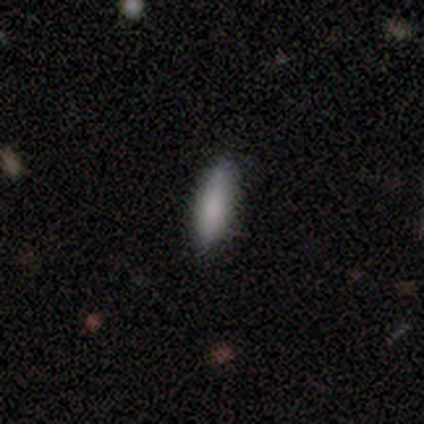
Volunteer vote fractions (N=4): Smooth or featured?
  - smooth: 100% *
  - featured or disk: 0%
  - star or artifact: 0%
How rounded?
  - in between: 50% * (tied)
  - cigar-shaped: 50% * (tied)
  - round: 0%
Merging?
  - none: 75% *
  - minor disturbance: 25%
  - major disturbance: 0%
  - merger: 0%